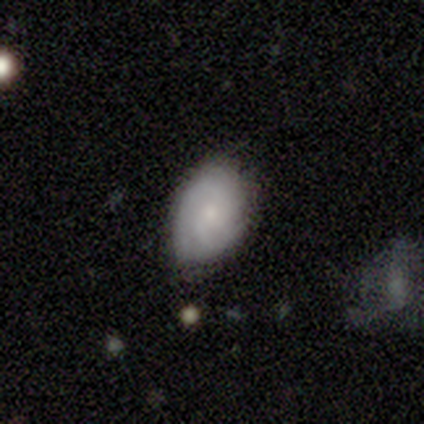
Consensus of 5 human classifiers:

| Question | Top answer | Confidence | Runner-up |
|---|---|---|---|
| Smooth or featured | featured or disk | 80% | smooth (20%) |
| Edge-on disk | no | 100% | — |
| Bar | no | 75% | weak (25%) |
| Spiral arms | yes | 75% | no (25%) |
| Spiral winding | medium | 67% | tight (33%) |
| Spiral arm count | can't tell | 67% | 2 (33%) |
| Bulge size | small | 75% | moderate (25%) |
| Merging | none | 80% | minor disturbance (20%) |